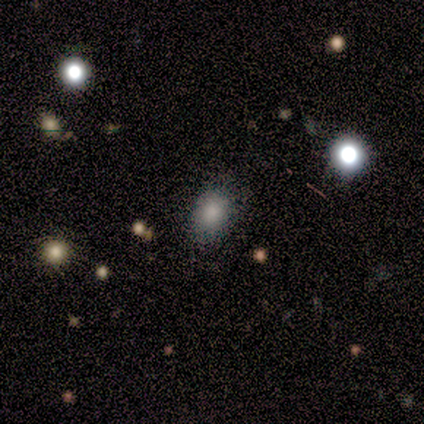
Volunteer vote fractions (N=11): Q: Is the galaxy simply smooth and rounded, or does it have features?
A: smooth — 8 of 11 (73%).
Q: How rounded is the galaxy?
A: in between — 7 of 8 (88%).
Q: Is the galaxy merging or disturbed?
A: none — 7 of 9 (78%).